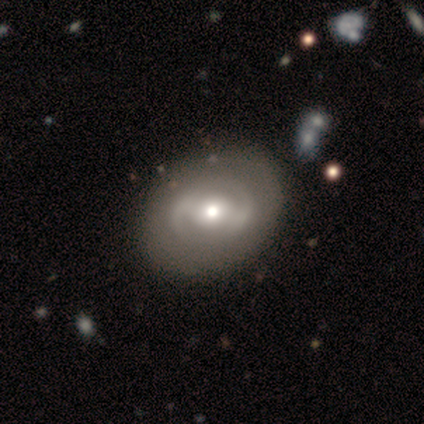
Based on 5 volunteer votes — This appears to be a featured or disk galaxy (60%) with a strong bar (67%), no spiral arms (67%) and a large central bulge (33%, tied with moderate and small). Merging: none (100%).